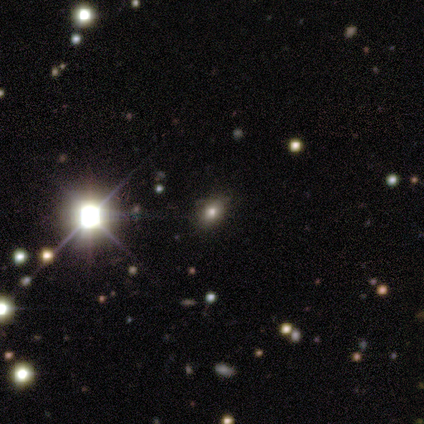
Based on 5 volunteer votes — Smooth or featured: star or artifact — 60% (smooth — 40%)